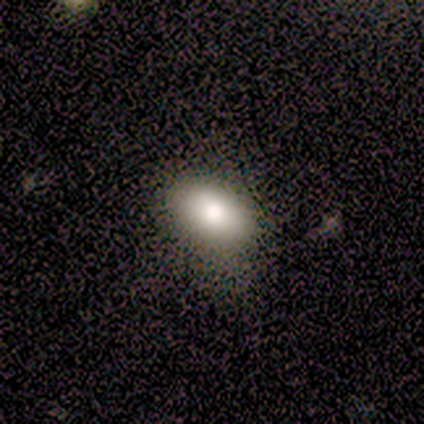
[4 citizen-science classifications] Smooth or featured? 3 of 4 (75%) said smooth. How rounded? 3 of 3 (100%) said in between. Merging? 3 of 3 (100%) said none.